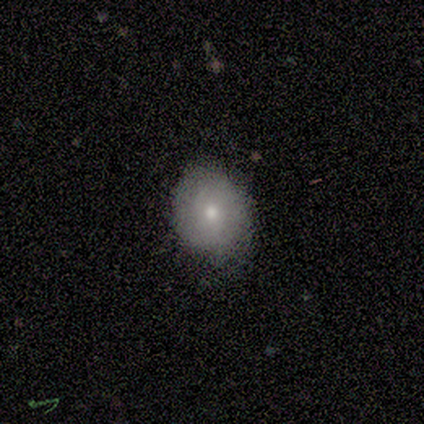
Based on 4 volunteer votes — Q: Smooth or featured?
A: smooth (75%); runner-up: featured or disk (25%)
Q: How rounded?
A: round (67%); runner-up: in between (33%)
Q: Merging?
A: none (75%); runner-up: minor disturbance (25%)